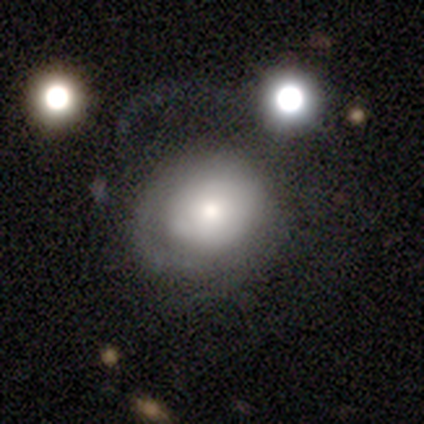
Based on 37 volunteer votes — This is possibly a featured or disk galaxy (51%). It is clearly not viewed edge-on (89%). Bar: clearly no (100%). Spiral arm pattern: likely no (71%). Central bulge: possibly moderate (53%). Merging: possibly none (58%).